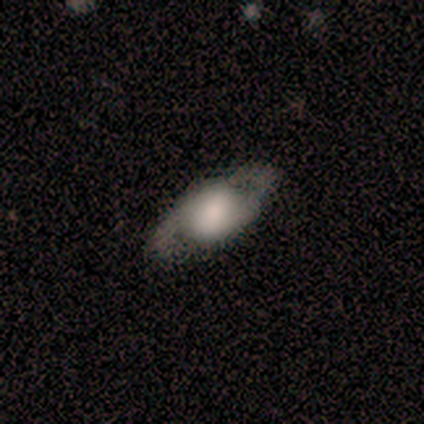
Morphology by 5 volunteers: A featured or disk galaxy (60%) with no bar (67%), 2 (100%) tight (33%, tied with medium and loose) spiral arms (100%) and a large central bulge (33%, tied with moderate and small). Merging: none (60%).